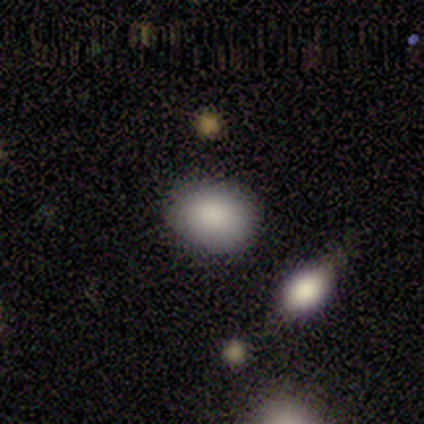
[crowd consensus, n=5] Smooth or featured? smooth (100%)
How rounded? in between (80%)
Merging? none (60%)